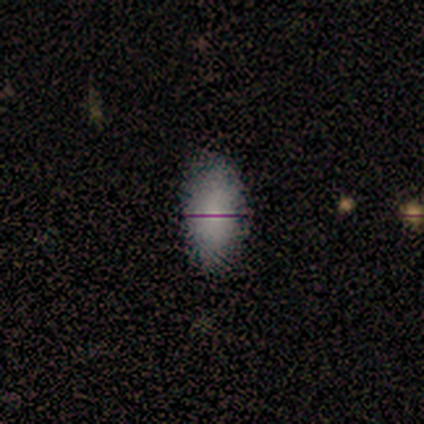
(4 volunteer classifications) smooth_or_featured: smooth (p=1.00)
how_rounded: in between (p=1.00)
merging: none (p=0.75) [alt: minor disturbance p=0.25]